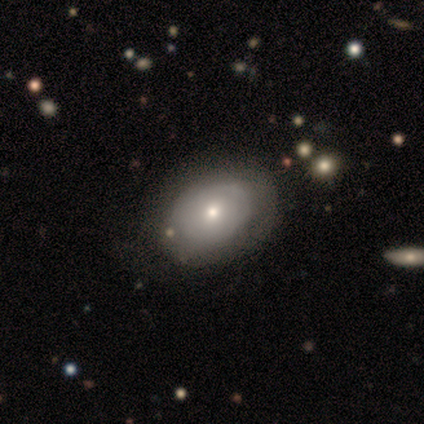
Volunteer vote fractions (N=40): Smooth or featured?
  - smooth: 68% *
  - featured or disk: 32%
  - star or artifact: 0%
How rounded?
  - in between: 78% *
  - round: 22%
  - cigar-shaped: 0%
Merging?
  - none: 62% *
  - minor disturbance: 15%
  - merger: 2%
  - major disturbance: 0%